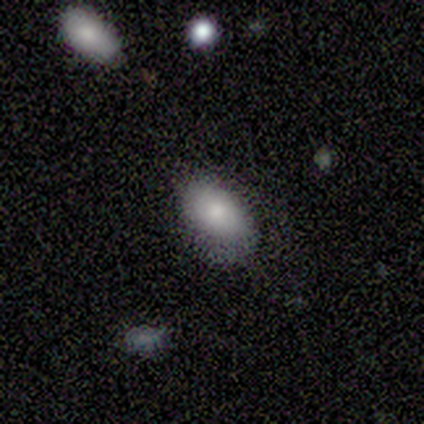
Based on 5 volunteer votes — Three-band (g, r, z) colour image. It shows a smooth galaxy with no disk features (60%) that is in between round and cigar-shaped (100%). Merging: none (75%).